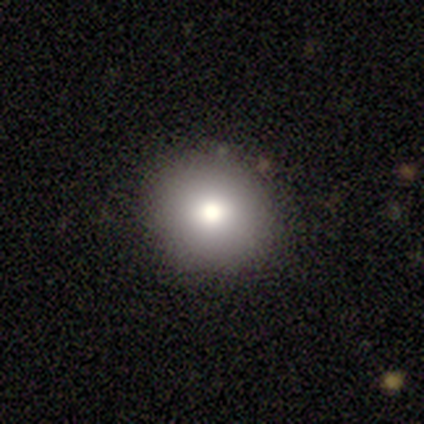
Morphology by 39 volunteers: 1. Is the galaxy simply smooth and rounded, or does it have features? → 74% smooth, 15% star or artifact, 10% featured or disk.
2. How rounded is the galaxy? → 93% round, 7% in between, 0% cigar-shaped.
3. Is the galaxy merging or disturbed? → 85% none, 9% minor disturbance, 3% major disturbance, 3% merger.